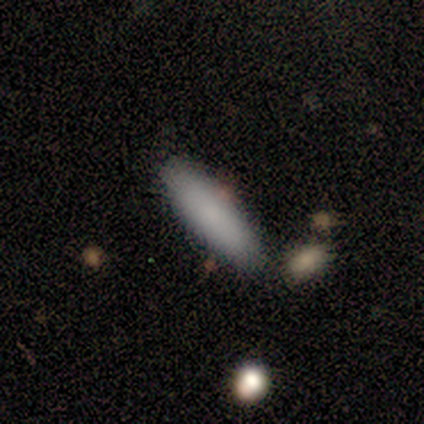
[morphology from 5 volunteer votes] smooth_or_featured: smooth (p=1.00)
how_rounded: in between (p=0.60) [alt: cigar-shaped p=0.40]
merging: none (p=0.80) [alt: merger p=0.20]